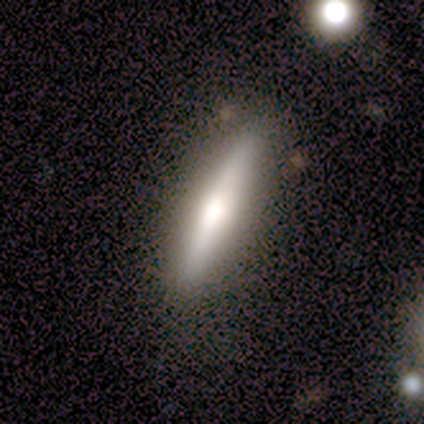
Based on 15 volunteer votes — Smooth or featured?
  - featured or disk: 60% *
  - smooth: 40%
  - star or artifact: 0%
Edge-on disk?
  - yes: 100% *
  - no: 0%
Edge-on bulge?
  - rounded: 78% *
  - boxy: 22%
  - none: 0%
Merging?
  - none: 87% *
  - minor disturbance: 13%
  - major disturbance: 0%
  - merger: 0%